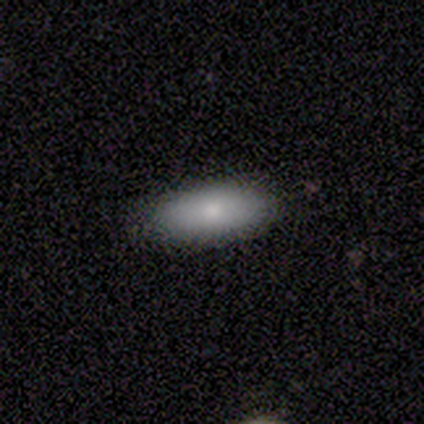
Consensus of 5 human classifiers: Volunteers were most divided on "smooth or featured": smooth: 80%, featured or disk: 20%, star or artifact: 0%. More confident: how rounded — in between (100%); merging — none (100%).